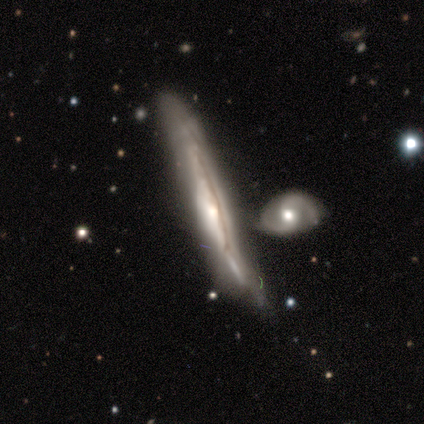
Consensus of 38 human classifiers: Volunteers were most divided on "merging" (3-way tie): none: 32%, minor disturbance: 32%, merger: 32%, major disturbance: 5%. Remaining: edge-on disk — yes (83%); smooth or featured — featured or disk (76%); edge-on bulge — none (46%).